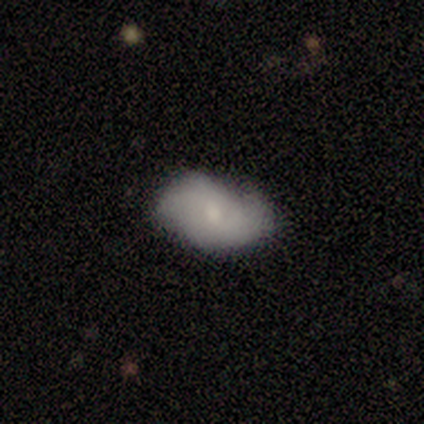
smooth 75%, featured or disk 25%, star or artifact 0%. Down the decision tree: how rounded — in between (67%); merging — none (50%, tied with minor disturbance).